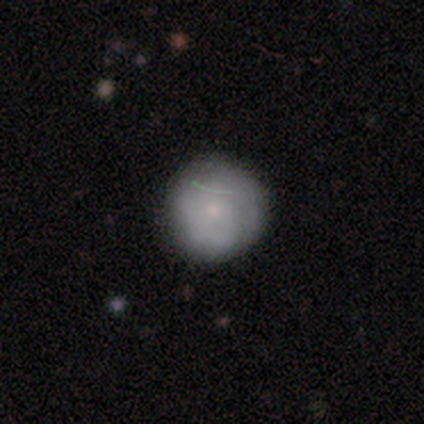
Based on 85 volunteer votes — Morphology: type=smooth (74%); roundness=round (95%); merging=none (80%).